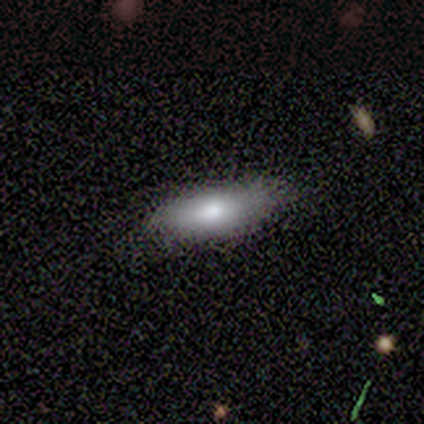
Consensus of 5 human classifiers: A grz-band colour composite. It shows a smooth galaxy with no disk features (100%) that is in between round and cigar-shaped (80%). Merging: none (80%).